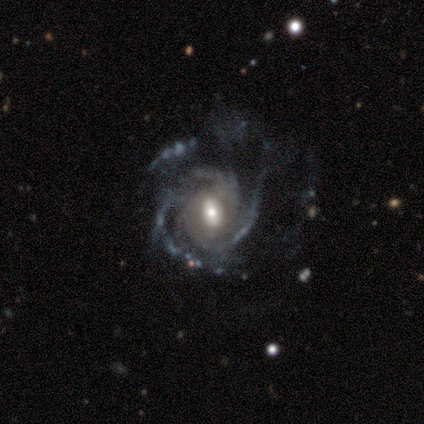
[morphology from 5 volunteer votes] Q: Smooth or featured?
A: featured or disk (100%)
Q: Edge-on disk?
A: no (100%)
Q: Bar?
A: strong (40%); tied with: weak (40%)
Q: Spiral arms?
A: yes (100%)
Q: Spiral winding?
A: medium (60%); runner-up: tight (40%)
Q: Spiral arm count?
A: 2 (60%); runner-up: 3 (20%)
Q: Bulge size?
A: moderate (100%)
Q: Merging?
A: none (60%); runner-up: major disturbance (40%)